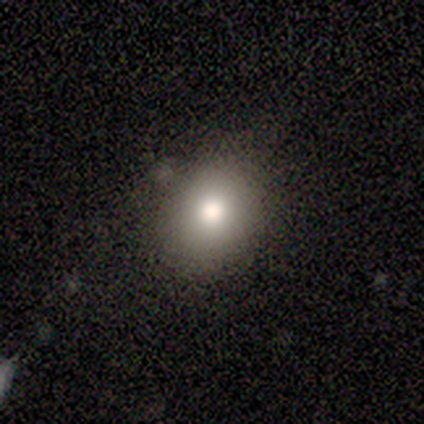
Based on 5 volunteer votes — Q: Smooth or featured?
A: smooth (100%)
Q: How rounded?
A: in between (60%); runner-up: round (40%)
Q: Merging?
A: none (60%); runner-up: minor disturbance (40%)